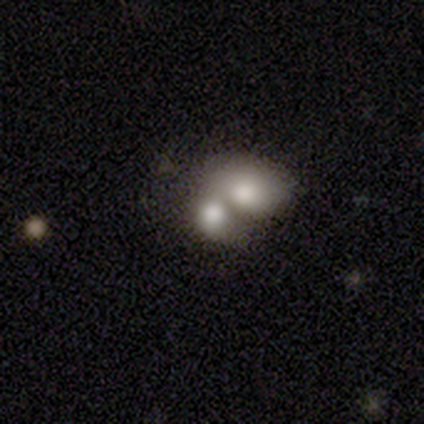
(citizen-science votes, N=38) smooth-or-featured: smooth: 71% | featured or disk: 21% | star or artifact: 8%
  how-rounded: in between: 59% | round: 41% | cigar-shaped: 0%
  merging: merger: 77% | none: 17% | minor disturbance: 3% | major disturbance: 3%